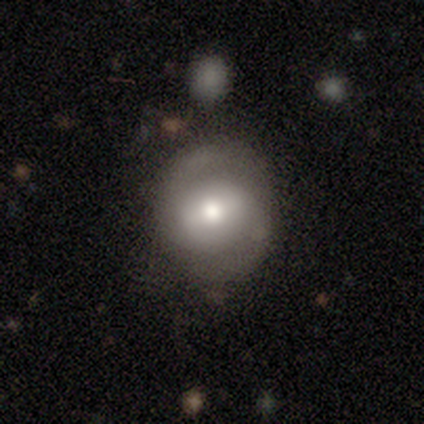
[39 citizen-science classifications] Smooth or featured: featured or disk — 69% (smooth — 23%)
Edge-on disk: no — 96% (yes — 4%)
Bar: weak — 54% (strong — 27%)
Spiral arms: yes — 88% (no — 12%)
Spiral winding: tight — 48% (medium — 43%)
Spiral arm count: 2 — 83% (can't tell — 13%)
Bulge size: moderate — 77% (small — 19%)
Merging: none — 81% (minor disturbance — 14%)